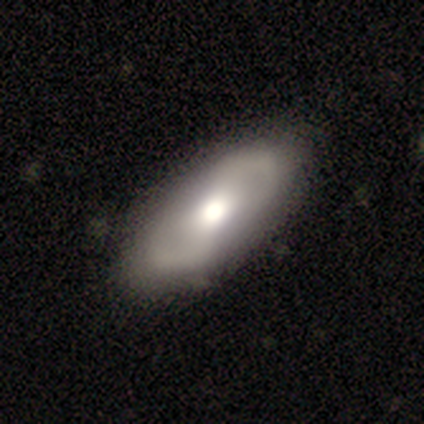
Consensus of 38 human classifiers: smooth-or-featured: featured or disk: 61% | smooth: 37% | star or artifact: 3%
  disk-edge-on: no: 91% | yes: 9%
    bar: weak: 38% | strong: 33% | no: 29%
    has-spiral-arms: yes: 76% | no: 24%
      spiral-winding: loose: 56% | medium: 38% | tight: 6%
      spiral-arm-count: 2: 100% | 1: 0% | 3: 0% | 4: 0% | more than 4: 0% | can't tell: 0%
    bulge-size: moderate: 71% | large: 24% | dominant: 5% | small: 0% | none: 0%
  merging: none: 57% | minor disturbance: 5% | major disturbance: 3% | merger: 0%